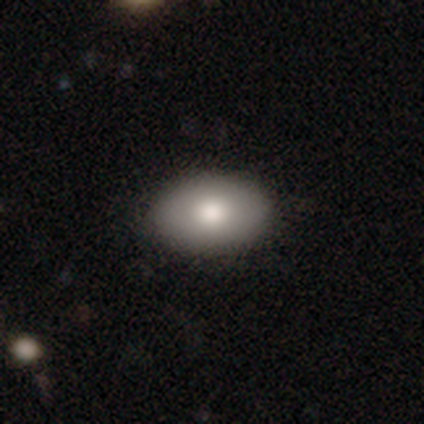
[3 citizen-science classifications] Smooth or featured? 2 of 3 (67%) said smooth. How rounded? 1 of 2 (50%, tied with in between) said round. Merging? 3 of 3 (100%) said none.